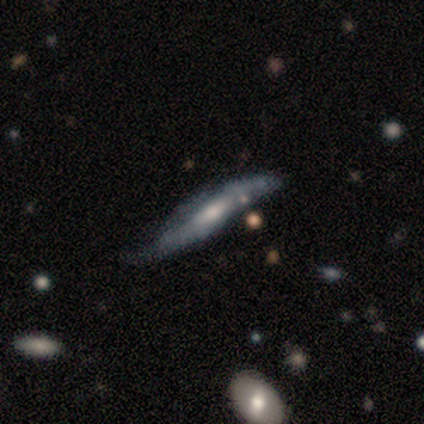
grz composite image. It shows a featured or disk galaxy (66%) viewed edge-on (72%) with a rounded central bulge (67%). Merging: none (41%).